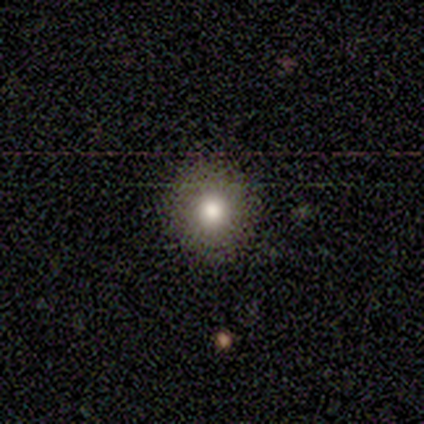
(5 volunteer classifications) Smooth or featured? smooth (80%)
How rounded? round (75%)
Merging? none (100%)